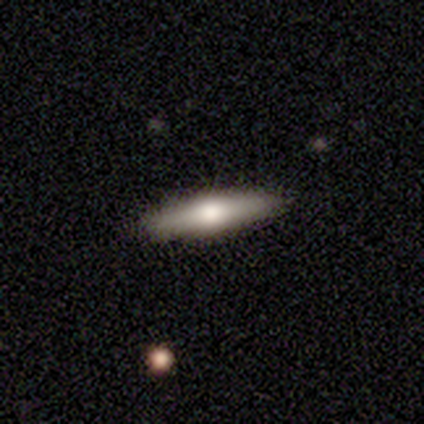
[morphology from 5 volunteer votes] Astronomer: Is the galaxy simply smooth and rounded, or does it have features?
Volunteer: featured or disk — 80%.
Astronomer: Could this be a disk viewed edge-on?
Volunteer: yes — 75%.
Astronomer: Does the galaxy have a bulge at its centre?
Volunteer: rounded — 100%.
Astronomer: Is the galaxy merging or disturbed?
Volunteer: none — 100%.